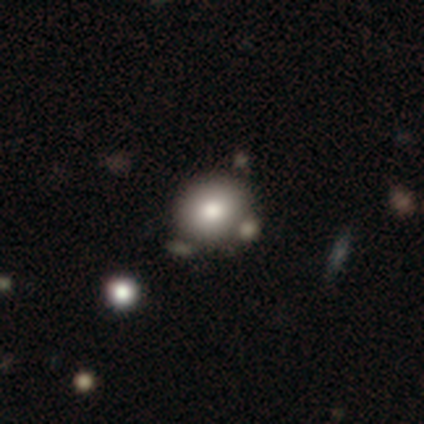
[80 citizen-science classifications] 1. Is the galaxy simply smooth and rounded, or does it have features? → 86% smooth, 8% featured or disk, 6% star or artifact.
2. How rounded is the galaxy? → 81% round, 19% in between, 0% cigar-shaped.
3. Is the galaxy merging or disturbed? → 33% none, 21% merger, 9% minor disturbance, 3% major disturbance.